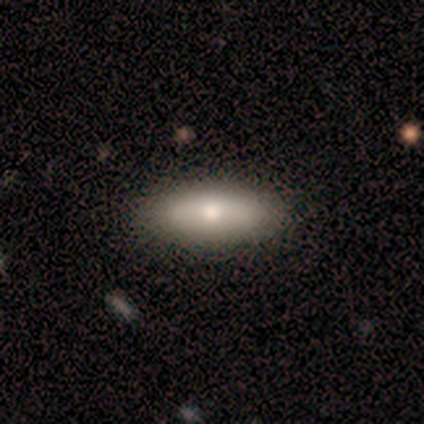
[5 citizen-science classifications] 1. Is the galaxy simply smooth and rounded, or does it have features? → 80% smooth, 20% featured or disk, 0% star or artifact.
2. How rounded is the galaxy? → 100% in between, 0% round, 0% cigar-shaped.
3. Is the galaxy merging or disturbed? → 100% none, 0% minor disturbance, 0% major disturbance, 0% merger.